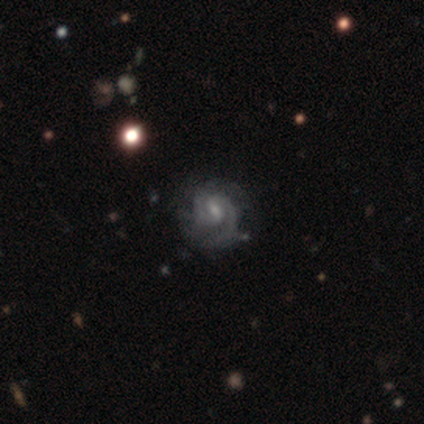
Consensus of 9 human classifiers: This appears to be a featured or disk galaxy (89%) with a weak bar (62%), 2 (75%) tight (50%, tied with medium) spiral arms (100%) and a small central bulge (62%). Merging: none (75%).